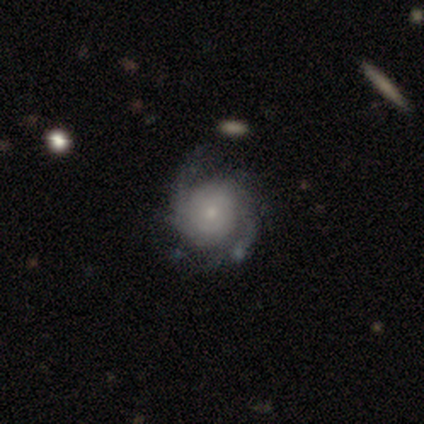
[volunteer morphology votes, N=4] Volunteers were most divided on "bar": no: 50%, strong: 25%, weak: 25%. More confident: smooth or featured — featured or disk (100%); edge-on disk — no (100%); spiral arms — yes (75%); merging — none (75%); spiral winding — tight (67%); spiral arm count — 3 (67%); bulge size — moderate (50%).